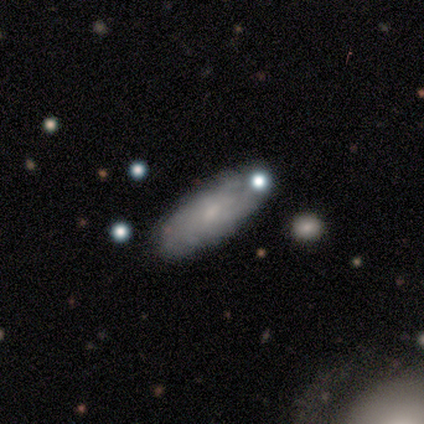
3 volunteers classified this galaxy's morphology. Smooth or featured: featured or disk — 67% (smooth — 33%)
Edge-on disk: no — 100%
Bar: strong — 50% (tied with no — 50%)
Spiral arms: yes — 50% (tied with no — 50%)
Spiral winding: tight — 100%
Spiral arm count: can't tell — 100%
Bulge size: moderate — 100%
Merging: none — 67% (minor disturbance — 33%)